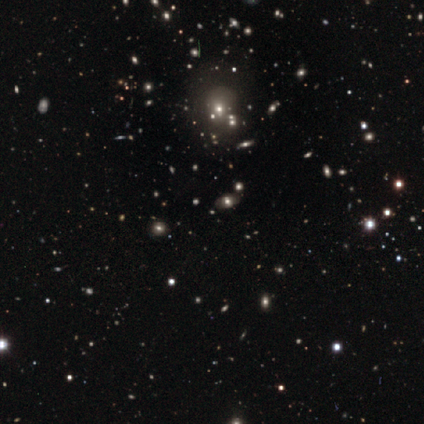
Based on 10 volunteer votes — smooth 70%, star or artifact 20%, featured or disk 10%. Down the decision tree: how rounded — round (86%); merging — none (75%).